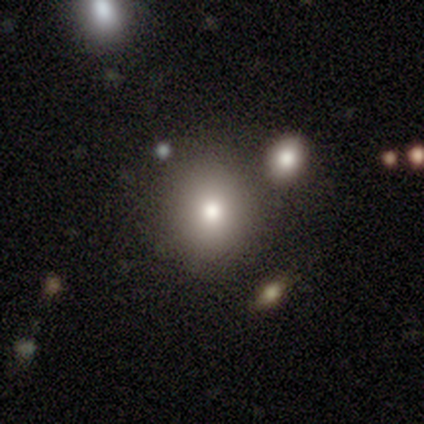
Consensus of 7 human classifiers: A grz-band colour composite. It shows a smooth galaxy with no disk features (86%) that is round (50%, tied with in between). Merging: none (100%).